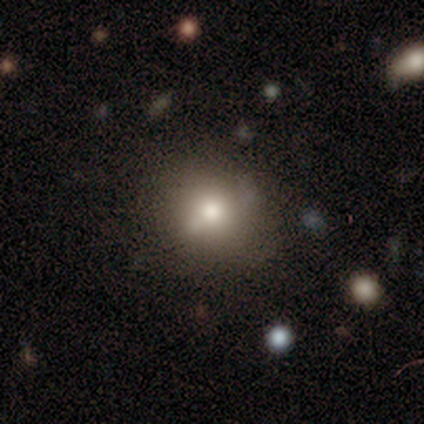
This appears to be a featured or disk galaxy (50%) with no bar (75%), no spiral arms (75%) and a moderate central bulge (50%). Merging: none (50%).